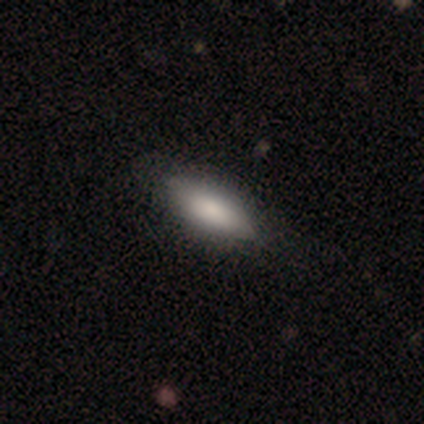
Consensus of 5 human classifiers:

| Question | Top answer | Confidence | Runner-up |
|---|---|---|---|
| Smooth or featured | smooth | 100% | — |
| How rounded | in between | 60% | cigar-shaped (40%) |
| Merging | none | 80% | minor disturbance (20%) |